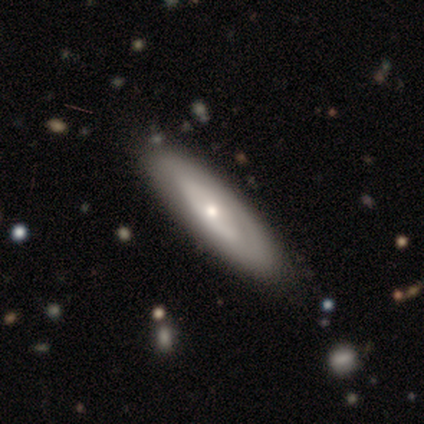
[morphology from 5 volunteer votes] A smooth galaxy with no disk features (60%) that is cigar-shaped (67%). Merging: none (100%).